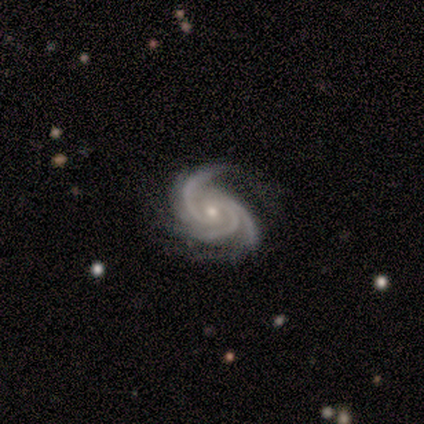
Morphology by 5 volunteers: Smooth or featured? featured or disk (100%)
Edge-on disk? no (100%)
Bar? no (80%)
Spiral arms? yes (100%)
Spiral winding? tight (100%)
Spiral arm count? 3 (80%)
Bulge size? small (60%)
Merging? none (80%)